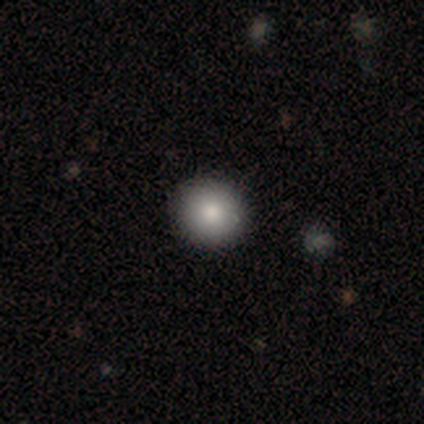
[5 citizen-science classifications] Smooth or featured?
  - smooth: 100% *
  - featured or disk: 0%
  - star or artifact: 0%
How rounded?
  - round: 100% *
  - in between: 0%
  - cigar-shaped: 0%
Merging?
  - none: 100% *
  - minor disturbance: 0%
  - major disturbance: 0%
  - merger: 0%